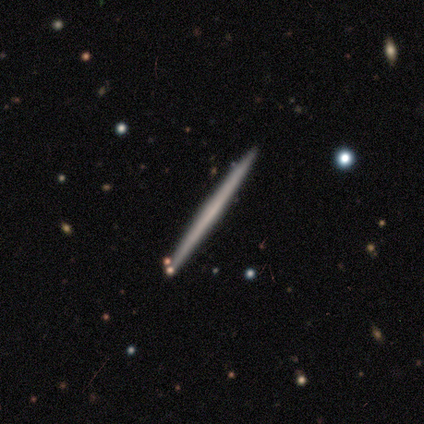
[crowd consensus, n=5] Smooth or featured? 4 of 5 (80%) said featured or disk. Edge-on disk? 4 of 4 (100%) said yes. Edge-on bulge? 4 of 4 (100%) said none. Merging? 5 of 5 (100%) said none.